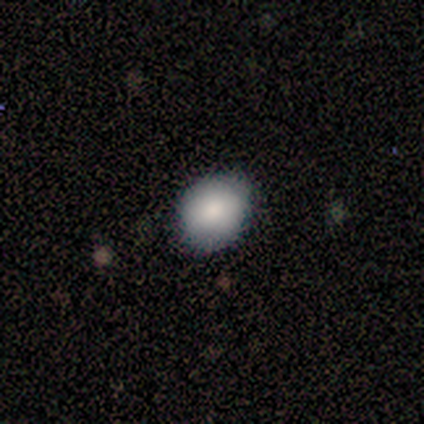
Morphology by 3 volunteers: Q: Smooth or featured?
A: smooth (100%)
Q: How rounded?
A: round (67%); runner-up: in between (33%)
Q: Merging?
A: minor disturbance (67%); runner-up: none (33%)